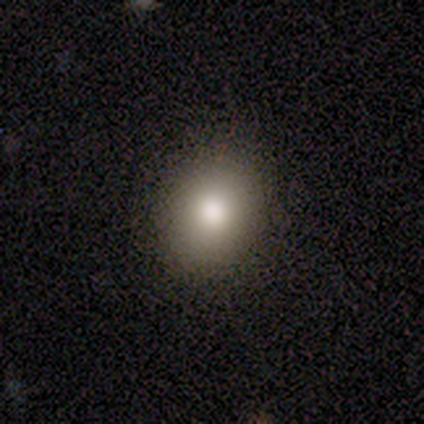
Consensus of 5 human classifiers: Morphology: type=smooth (80%); roundness=round (75%); merging=none (80%).